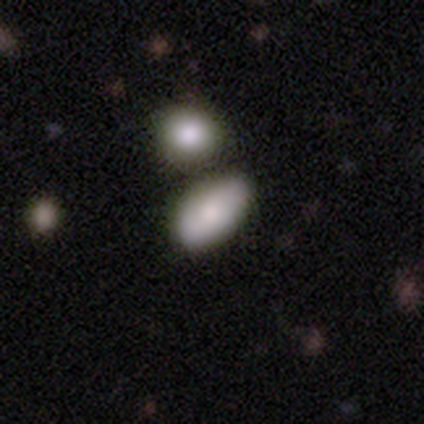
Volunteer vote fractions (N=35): Smooth or featured? 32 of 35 (91%) said smooth. How rounded? 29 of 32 (91%) said in between. Merging? 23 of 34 (68%) said merger.